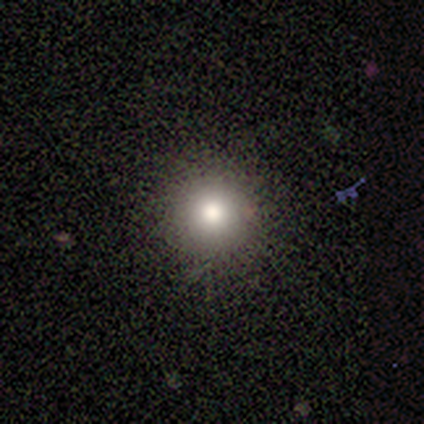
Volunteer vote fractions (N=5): Overall: smooth (80%). How rounded: round (100%). Merging: none (100%).